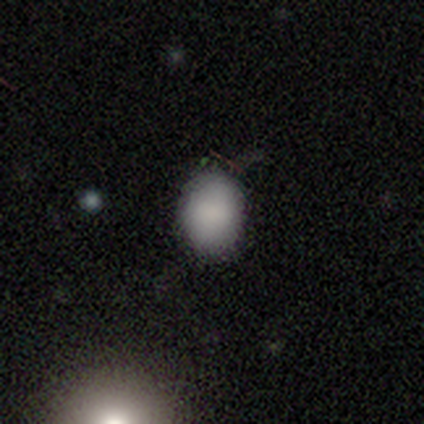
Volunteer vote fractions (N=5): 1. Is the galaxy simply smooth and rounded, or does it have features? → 100% smooth, 0% featured or disk, 0% star or artifact.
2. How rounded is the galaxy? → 60% round, 40% in between, 0% cigar-shaped.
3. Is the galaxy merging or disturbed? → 80% none, 20% minor disturbance, 0% major disturbance, 0% merger.